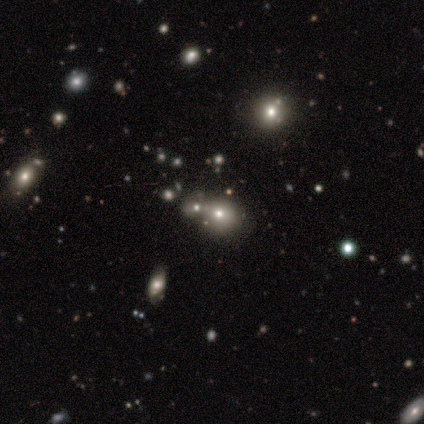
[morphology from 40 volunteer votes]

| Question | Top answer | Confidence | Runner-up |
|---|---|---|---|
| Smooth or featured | smooth | 55% | star or artifact (32%) |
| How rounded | round | 77% | in between (23%) |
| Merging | none | 63% | merger (30%) |